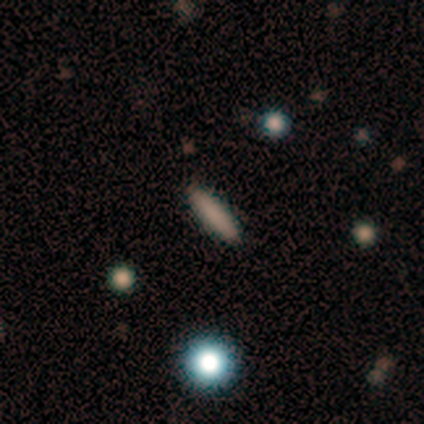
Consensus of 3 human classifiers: A smooth galaxy with no disk features (67%) that is cigar-shaped (100%).

Vote fractions:
- Smooth or featured? smooth: 67% / featured or disk: 33% / star or artifact: 0%
- How rounded? cigar-shaped: 100% / round: 0% / in between: 0%
- Merging? none: 100% / minor disturbance: 0% / major disturbance: 0% / merger: 0%